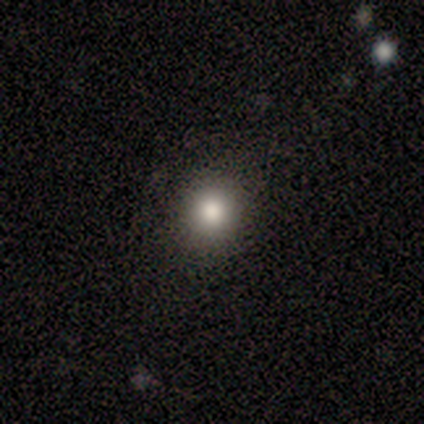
smooth 75%, featured or disk 25%, star or artifact 0%. Down the decision tree: how rounded — round (67%); merging — none (100%).